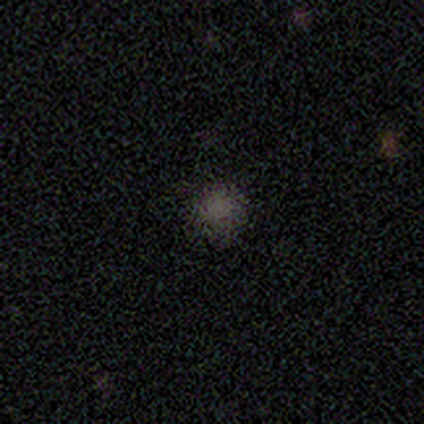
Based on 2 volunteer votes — featured or disk 50% (tied), star or artifact 50% (tied), smooth 0%. Down the decision tree: edge-on disk — no (100%); bar — no (100%); spiral arms — no (100%); bulge size — none (100%); merging — none (100%).